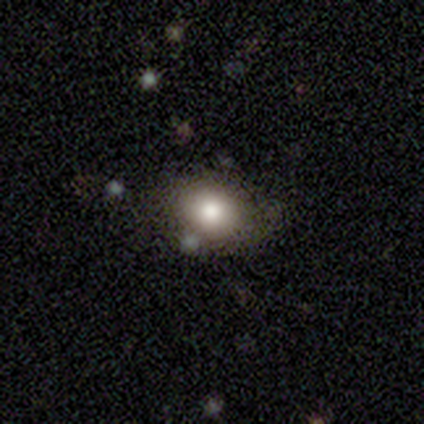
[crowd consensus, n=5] Smooth or featured? 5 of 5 (100%) said smooth. How rounded? 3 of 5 (60%) said in between. Merging? 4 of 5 (80%) said none.